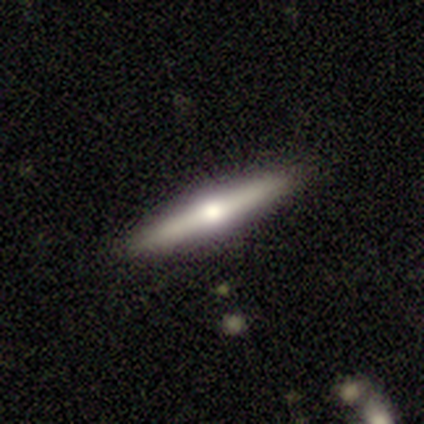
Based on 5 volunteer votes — A smooth galaxy with no disk features (60%) that is cigar-shaped (100%).

Vote fractions:
- Smooth or featured? smooth: 60% / featured or disk: 40% / star or artifact: 0%
- How rounded? cigar-shaped: 100% / round: 0% / in between: 0%
- Merging? none: 80% / minor disturbance: 20% / major disturbance: 0% / merger: 0%